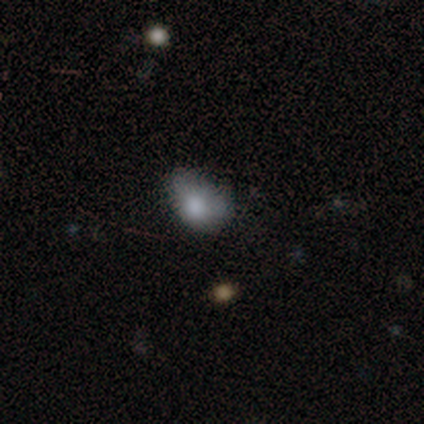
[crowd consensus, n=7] smooth 100%, featured or disk 0%, star or artifact 0%. Down the decision tree: how rounded — in between (71%); merging — minor disturbance (57%).